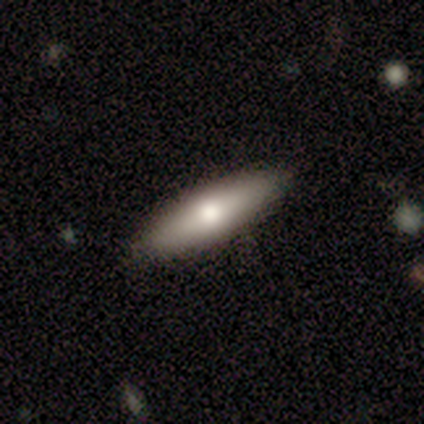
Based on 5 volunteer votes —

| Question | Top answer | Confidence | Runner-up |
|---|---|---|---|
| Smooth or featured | featured or disk | 60% | smooth (40%) |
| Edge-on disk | no | 67% | yes (33%) |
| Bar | no | 100% | — |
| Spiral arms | no | 100% | — |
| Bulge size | moderate | 50% | tied: small (50%) |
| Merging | none | 100% | — |